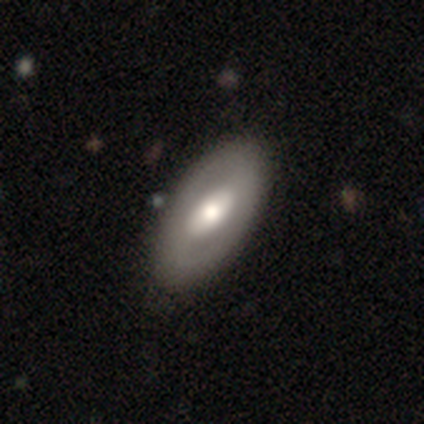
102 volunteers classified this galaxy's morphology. Volunteers were most divided on "smooth or featured": featured or disk: 49%, smooth: 48%, star or artifact: 3%. Remaining: edge-on disk — no (94%); merging — none (82%); spiral arms — no (81%); bulge size — moderate (66%); bar — no (43%).